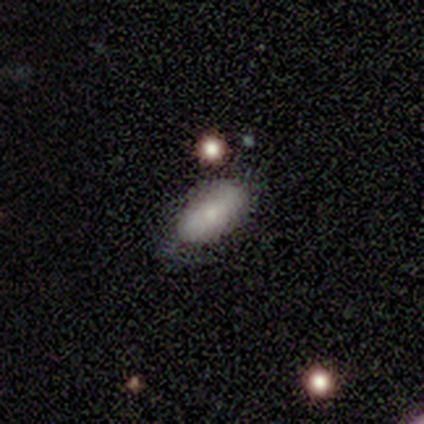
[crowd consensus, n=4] Volunteers were most divided on "smooth or featured" (2-way tie): smooth: 50%, featured or disk: 50%, star or artifact: 0%. More confident: how rounded — in between (100%); merging — none (100%).